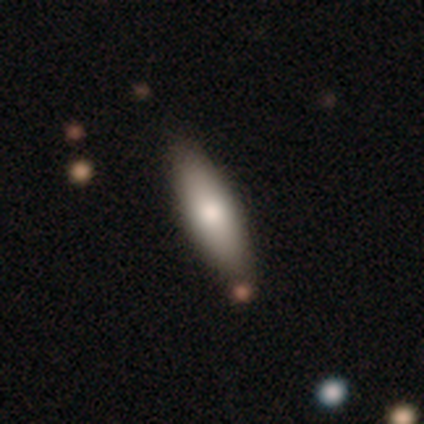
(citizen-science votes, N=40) Q: Smooth or featured?
A: smooth (75%); runner-up: featured or disk (22%)
Q: How rounded?
A: in between (57%); runner-up: cigar-shaped (43%)
Q: Merging?
A: none (87%); runner-up: minor disturbance (10%)